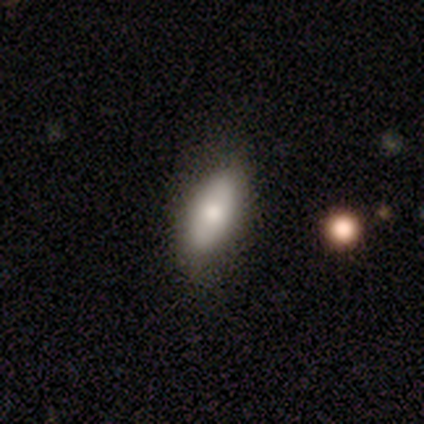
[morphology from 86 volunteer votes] Smooth or featured: smooth — 72% (featured or disk — 19%)
How rounded: in between — 87% (cigar-shaped — 10%)
Merging: none — 78% (minor disturbance — 17%)